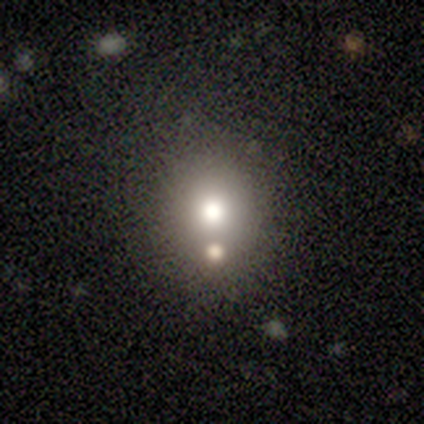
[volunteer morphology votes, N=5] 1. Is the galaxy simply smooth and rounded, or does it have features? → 60% smooth, 40% star or artifact, 0% featured or disk.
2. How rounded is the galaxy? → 67% in between, 33% round, 0% cigar-shaped.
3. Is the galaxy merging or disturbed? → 100% none, 0% minor disturbance, 0% major disturbance, 0% merger.